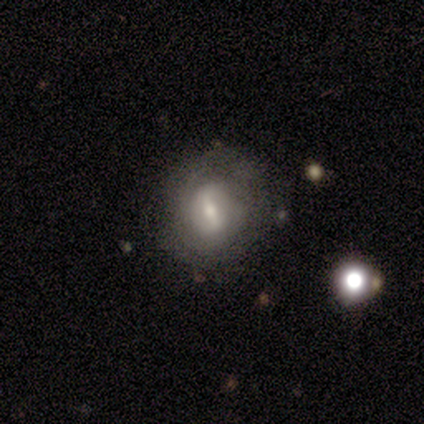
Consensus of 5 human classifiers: featured or disk 80%, smooth 20%, star or artifact 0%. Down the decision tree: edge-on disk — no (75%); bar — strong (67%); spiral arms — yes (67%); spiral arm count — can't tell (100%); spiral winding — tight (100%); bulge size — moderate (67%); merging — none (80%).